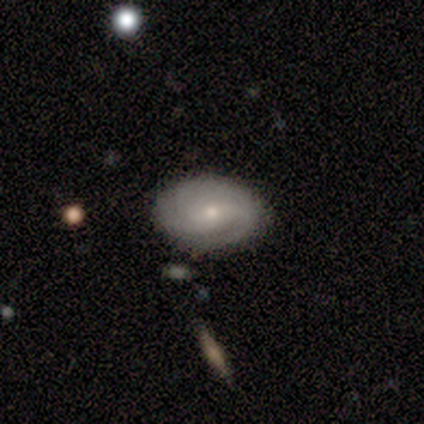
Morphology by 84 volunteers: A featured or disk galaxy (68%) with no bar (54%), 3 (52%) tight (57%) spiral arms (79%) and a small central bulge (62%). Merging: none (81%).